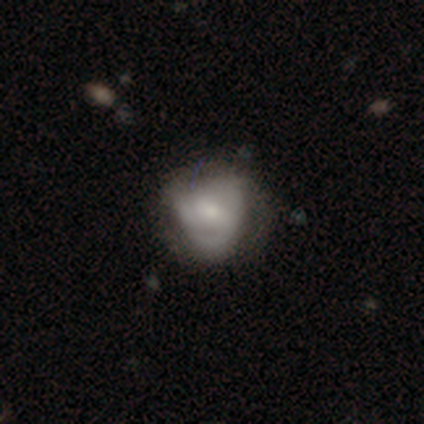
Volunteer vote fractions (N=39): Q: Smooth or featured?
A: smooth (46%); runner-up: featured or disk (44%)
Q: How rounded?
A: round (50%); tied with: in between (50%)
Q: Merging?
A: none (63%); runner-up: minor disturbance (26%)